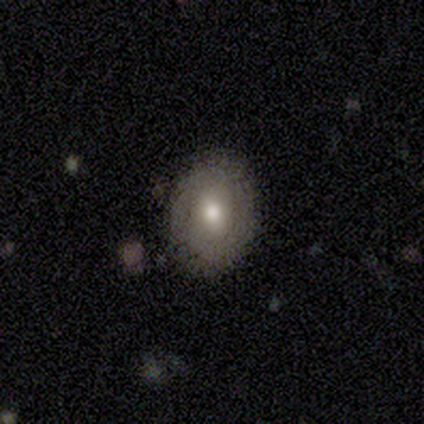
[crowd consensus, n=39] This appears to be a smooth galaxy with no disk features (67%) that is in between round and cigar-shaped (54%). Merging: none (85%).